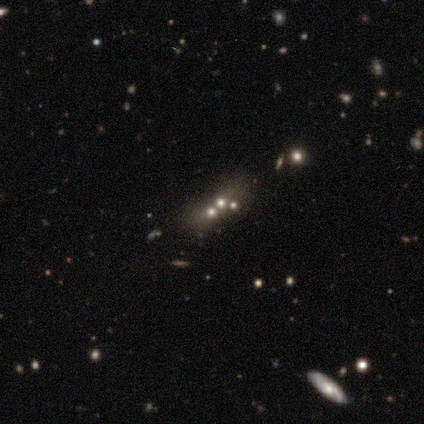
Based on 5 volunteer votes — Smooth or featured?
  - featured or disk: 60% *
  - smooth: 20%
  - star or artifact: 20%
Edge-on disk?
  - no: 100% *
  - yes: 0%
Bar?
  - no: 100% *
  - strong: 0%
  - weak: 0%
Spiral arms?
  - no: 100% *
  - yes: 0%
Bulge size?
  - moderate: 100% *
  - dominant: 0%
  - large: 0%
  - small: 0%
  - none: 0%
Merging?
  - none: 75% *
  - merger: 25%
  - minor disturbance: 0%
  - major disturbance: 0%